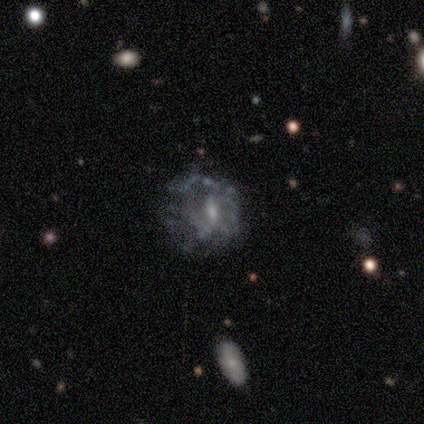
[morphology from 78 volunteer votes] A featured or disk galaxy (65%) with a weak bar (48%), no spiral arms (67%) and a small central bulge (44%). Merging: none (43%).